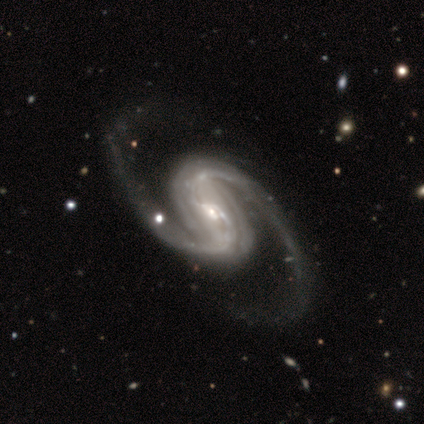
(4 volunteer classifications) smooth-or-featured: featured or disk: 75% | smooth: 25% | star or artifact: 0%
  disk-edge-on: no: 100% | yes: 0%
    bar: strong: 67% | weak: 33% | no: 0%
    has-spiral-arms: yes: 100% | no: 0%
      spiral-winding: medium: 67% | tight: 33% | loose: 0%
      spiral-arm-count: 2: 100% | 1: 0% | 3: 0% | 4: 0% | more than 4: 0% | can't tell: 0%
    bulge-size: small: 100% | dominant: 0% | large: 0% | moderate: 0% | none: 0%
  merging: none: 75% | major disturbance: 25% | minor disturbance: 0% | merger: 0%